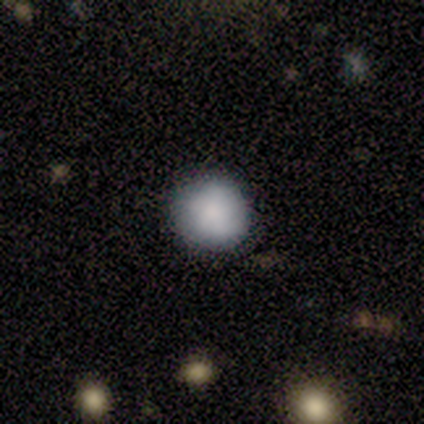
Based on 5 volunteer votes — Morphology: type=smooth (80%); roundness=round (100%); merging=none (100%).